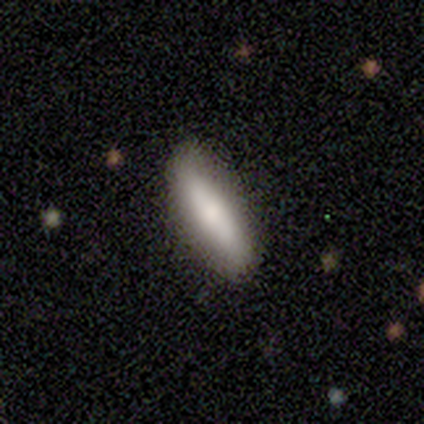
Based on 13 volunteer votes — smooth_or_featured: smooth (p=0.77) [alt: featured or disk p=0.15]
how_rounded: in between (p=0.50) [tied with: cigar-shaped p=0.50]
merging: none (p=0.83) [alt: minor disturbance p=0.17]